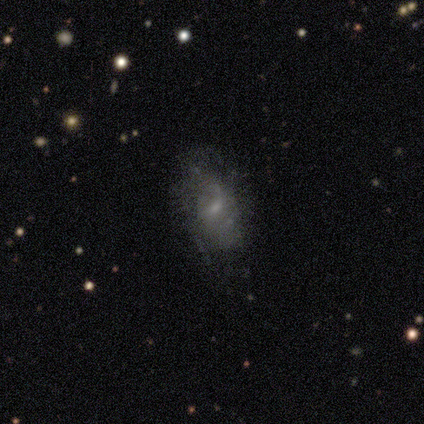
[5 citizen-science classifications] Q: Smooth or featured?
A: featured or disk (80%); runner-up: smooth (20%)
Q: Edge-on disk?
A: no (100%)
Q: Bar?
A: no (75%); runner-up: weak (25%)
Q: Spiral arms?
A: no (75%); runner-up: yes (25%)
Q: Bulge size?
A: small (100%)
Q: Merging?
A: none (80%); runner-up: merger (20%)